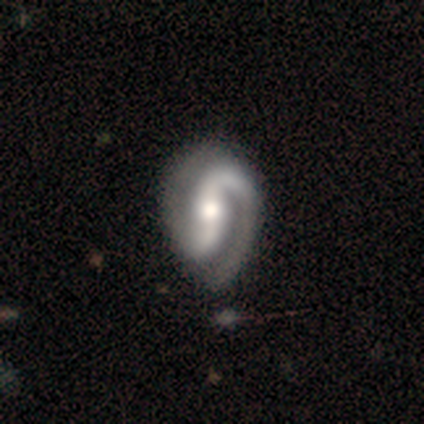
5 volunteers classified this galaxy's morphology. type=featured or disk (100%); edge-on=no (100%); bar=no (80%); spiral arms=yes (100%); winding=medium (60%); arm count=2 (80%); bulge=large (40%, tied with moderate); merging=none (100%).